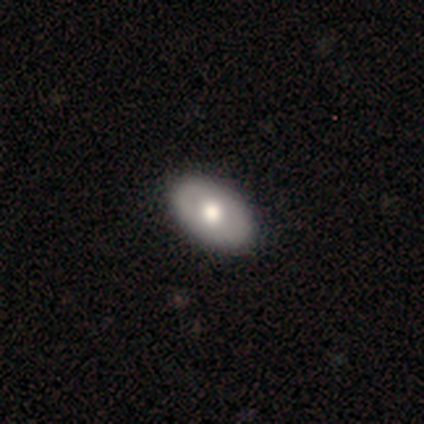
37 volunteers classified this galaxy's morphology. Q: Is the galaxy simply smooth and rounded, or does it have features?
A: featured or disk — 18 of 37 (49%).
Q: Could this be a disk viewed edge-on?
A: no — 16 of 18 (89%).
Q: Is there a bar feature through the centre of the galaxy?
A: no — 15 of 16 (94%).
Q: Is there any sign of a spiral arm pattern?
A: no — 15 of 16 (94%).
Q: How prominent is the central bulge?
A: moderate — 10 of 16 (62%).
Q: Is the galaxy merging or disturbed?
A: none — 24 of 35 (69%).